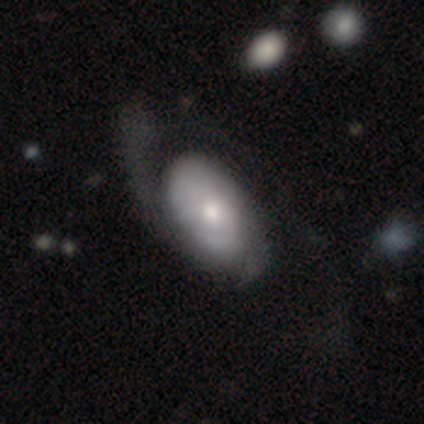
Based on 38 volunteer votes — Q: Smooth or featured?
A: featured or disk (79%); runner-up: smooth (18%)
Q: Edge-on disk?
A: no (100%)
Q: Bar?
A: no (90%); runner-up: weak (10%)
Q: Spiral arms?
A: yes (70%); runner-up: no (30%)
Q: Spiral winding?
A: tight (38%); runner-up: medium (33%)
Q: Spiral arm count?
A: can't tell (38%); runner-up: 2 (29%)
Q: Bulge size?
A: moderate (60%); runner-up: small (27%)
Q: Merging?
A: major disturbance (35%); runner-up: none (27%)